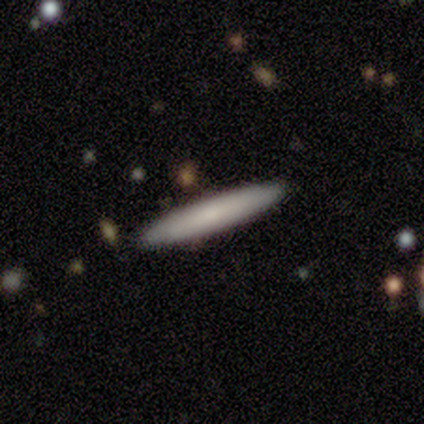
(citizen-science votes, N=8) A smooth galaxy with no disk features (62%) that is cigar-shaped (100%).

Vote fractions:
- Smooth or featured? smooth: 62% / featured or disk: 38% / star or artifact: 0%
- How rounded? cigar-shaped: 100% / round: 0% / in between: 0%
- Merging? none: 88% / minor disturbance: 12% / major disturbance: 0% / merger: 0%